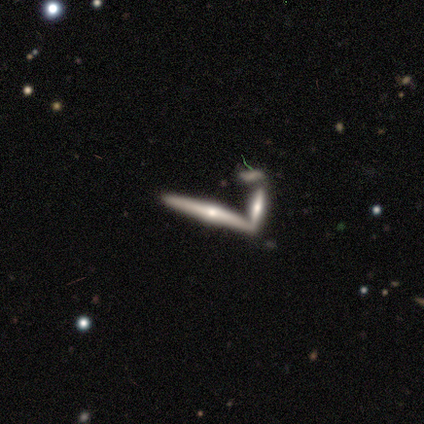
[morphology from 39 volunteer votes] Smooth or featured? 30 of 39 (77%) said featured or disk. Edge-on disk? 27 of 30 (90%) said yes. Edge-on bulge? 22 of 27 (81%) said rounded. Merging? 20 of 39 (51%) said none.